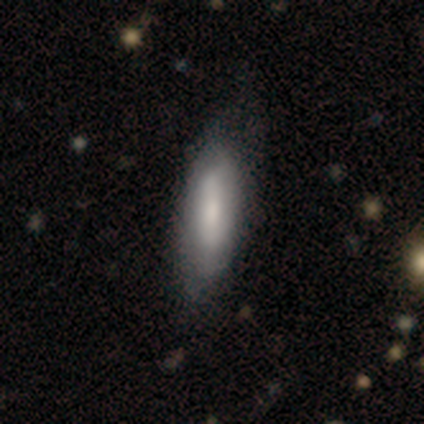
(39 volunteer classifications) A smooth galaxy with no disk features (69%) that is in between round and cigar-shaped (74%). Merging: none (68%).